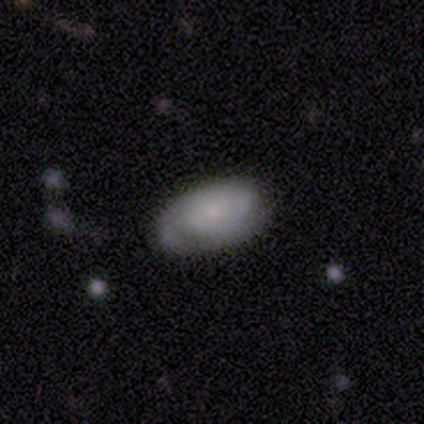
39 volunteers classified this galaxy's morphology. Smooth or featured? featured or disk (59%)
Edge-on disk? no (87%)
Bar? no (80%)
Spiral arms? yes (85%)
Spiral winding? tight (65%)
Spiral arm count? can't tell (41%)
Bulge size? small (55%)
Merging? none (71%)